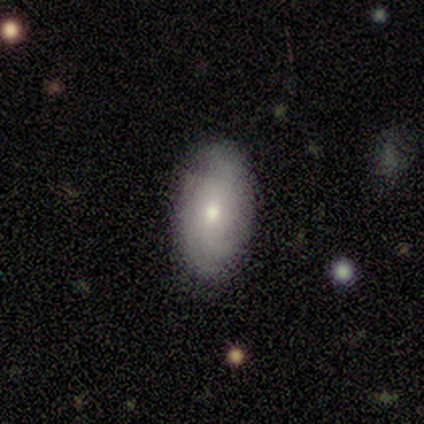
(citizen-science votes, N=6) A smooth galaxy with no disk features (83%) that is in between round and cigar-shaped (80%).

Vote fractions:
- Smooth or featured? smooth: 83% / featured or disk: 17% / star or artifact: 0%
- How rounded? in between: 80% / round: 20% / cigar-shaped: 0%
- Merging? none: 83% / minor disturbance: 17% / major disturbance: 0% / merger: 0%